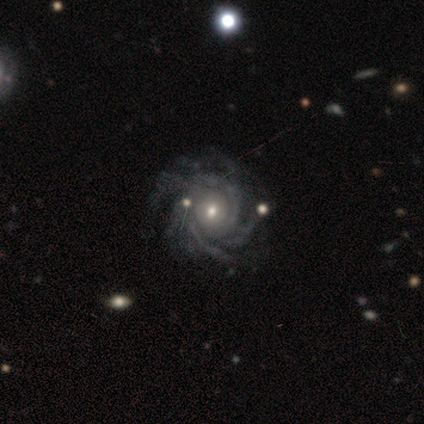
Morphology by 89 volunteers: Smooth or featured? featured or disk (93%)
Edge-on disk? no (95%)
Bar? no (67%)
Spiral arms? yes (99%)
Spiral winding? tight (65%)
Spiral arm count? more than 4 (62%)
Bulge size? moderate (52%)
Merging? none (72%)